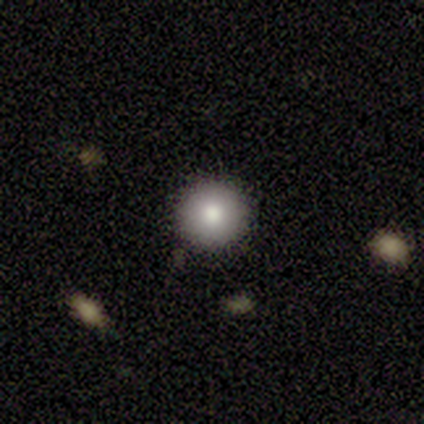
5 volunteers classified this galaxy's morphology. Q: Smooth or featured?
A: smooth (60%); runner-up: featured or disk (20%)
Q: How rounded?
A: round (100%)
Q: Merging?
A: none (75%); runner-up: minor disturbance (25%)